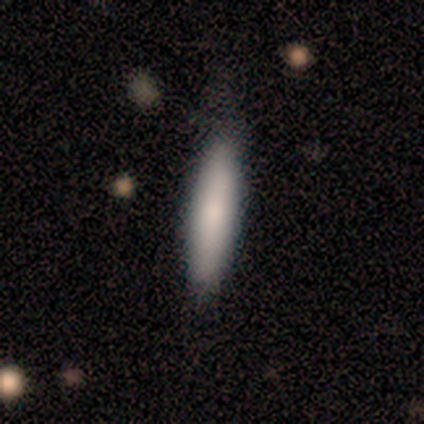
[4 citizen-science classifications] Smooth or featured? smooth (75%)
How rounded? cigar-shaped (67%)
Merging? none (75%)